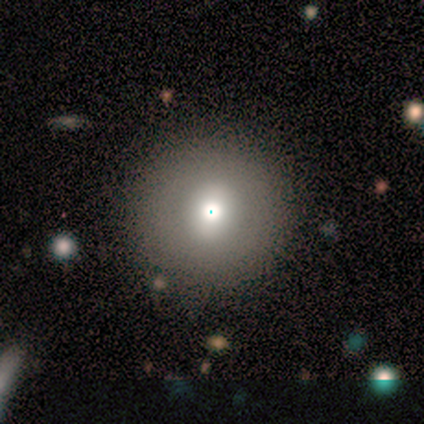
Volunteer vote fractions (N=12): Smooth or featured? smooth (50%)
How rounded? round (100%)
Merging? none (78%)